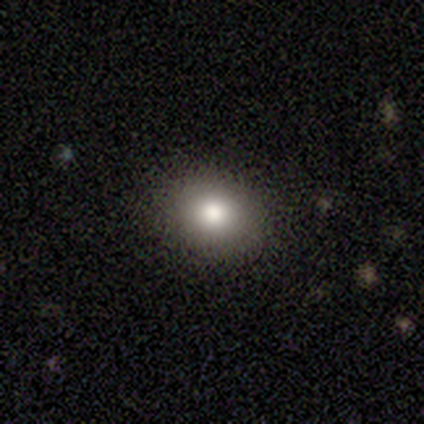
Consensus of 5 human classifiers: Smooth or featured? smooth (100%)
How rounded? in between (60%)
Merging? none (80%)